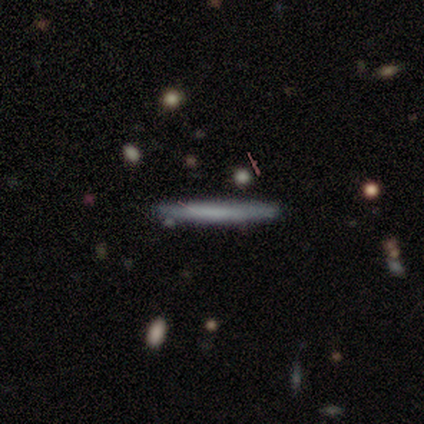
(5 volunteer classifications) Volunteers were most divided on "smooth or featured": featured or disk: 60%, smooth: 40%, star or artifact: 0%. More confident: edge-on disk — yes (100%); edge-on bulge — none (100%); merging — none (100%).